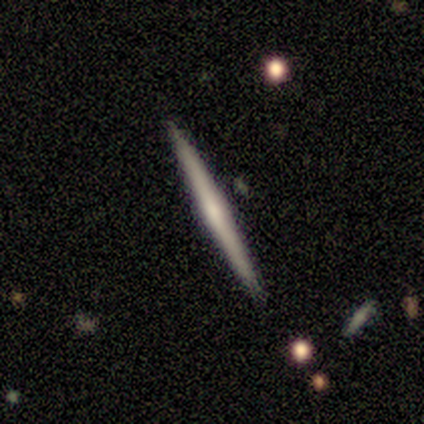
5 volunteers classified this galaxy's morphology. Overall: featured or disk (60%; smooth 40%). Edge-on disk: yes (100%). Edge-on bulge: none (67%; rounded 33%). Merging: none (100%).